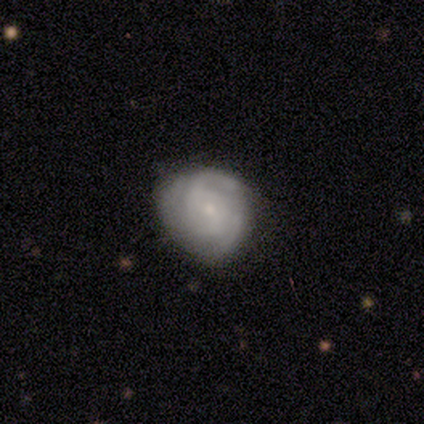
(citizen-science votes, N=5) A featured or disk galaxy (80%) with no bar (100%), 2 (75%) medium (75%) spiral arms (100%) and a small central bulge (75%).

Vote fractions:
- Smooth or featured? featured or disk: 80% / smooth: 20% / star or artifact: 0%
- Edge-on disk? no: 100% / yes: 0%
- Bar? no: 100% / strong: 0% / weak: 0%
- Spiral arms? yes: 100% / no: 0%
- Spiral winding? medium: 75% / tight: 25% / loose: 0%
- Spiral arm count? 2: 75% / 3: 25% / 1: 0% / 4: 0% / more than 4: 0% / can't tell: 0%
- Bulge size? small: 75% / moderate: 25% / dominant: 0% / large: 0% / none: 0%
- Merging? none: 40% (tied) / minor disturbance: 40% (tied) / merger: 20% / major disturbance: 0%